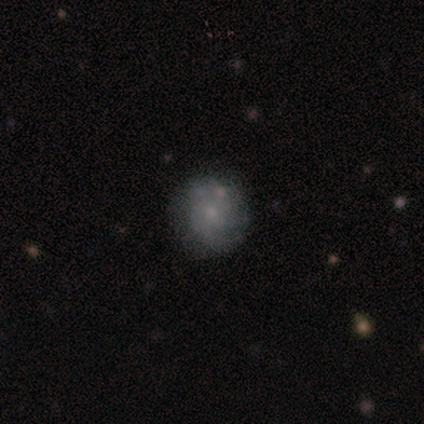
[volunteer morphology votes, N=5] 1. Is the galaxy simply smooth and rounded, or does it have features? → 60% smooth, 40% featured or disk, 0% star or artifact.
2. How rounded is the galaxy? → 67% round, 33% in between, 0% cigar-shaped.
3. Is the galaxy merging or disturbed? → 80% none, 20% minor disturbance, 0% major disturbance, 0% merger.